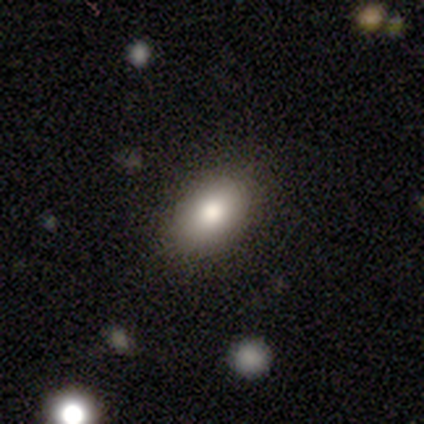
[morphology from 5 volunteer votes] Smooth or featured? smooth (80%)
How rounded? in between (100%)
Merging? none (100%)